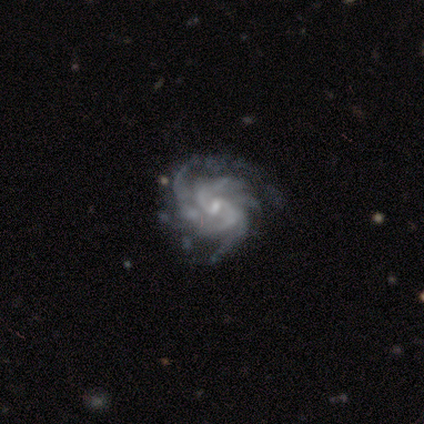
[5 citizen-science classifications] Smooth or featured? featured or disk (100%)
Edge-on disk? no (100%)
Bar? weak (60%)
Spiral arms? yes (100%)
Spiral winding? medium (80%)
Spiral arm count? more than 4 (40%)
Bulge size? small (80%)
Merging? major disturbance (60%)